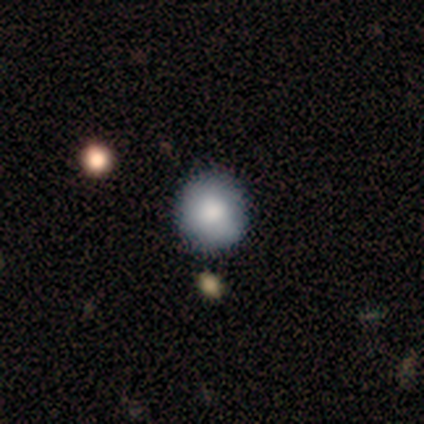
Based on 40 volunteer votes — This is clearly a smooth galaxy (88%). How rounded: clearly round (97%). Merging: likely none (72%).